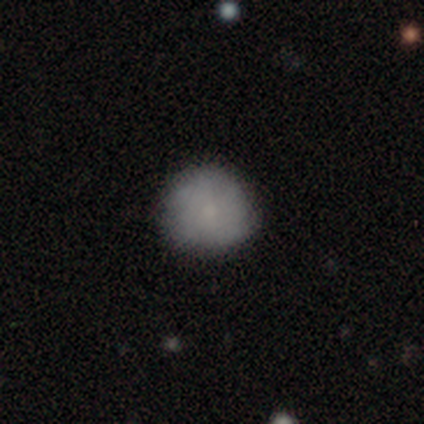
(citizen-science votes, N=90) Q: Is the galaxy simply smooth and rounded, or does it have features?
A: smooth — 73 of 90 (81%).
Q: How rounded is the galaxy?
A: round — 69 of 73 (95%).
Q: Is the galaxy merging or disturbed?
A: none — 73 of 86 (85%).